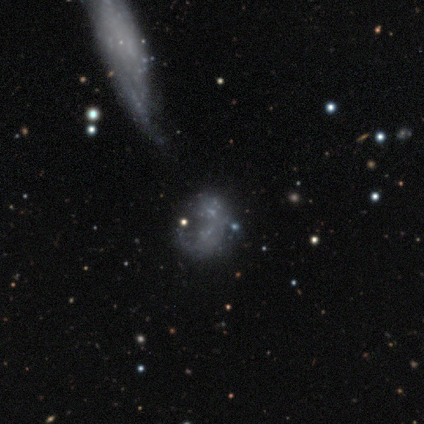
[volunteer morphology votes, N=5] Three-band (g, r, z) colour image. It shows a featured or disk galaxy (40%, tied with star or artifact) with no bar (100%), no spiral arms (100%) and no central bulge (100%). Merging: none (67%).